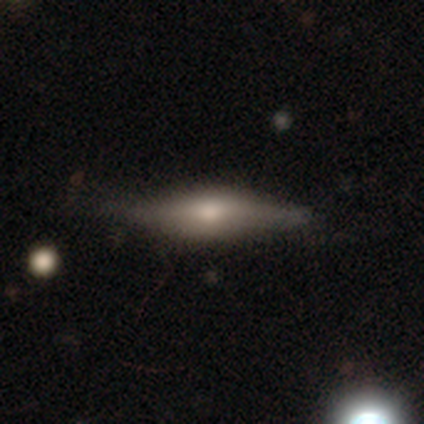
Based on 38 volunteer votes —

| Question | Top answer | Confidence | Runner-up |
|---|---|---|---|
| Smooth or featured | featured or disk | 58% | smooth (37%) |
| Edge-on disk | yes | 91% | no (9%) |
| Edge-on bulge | rounded | 85% | boxy (15%) |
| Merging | none | 72% | minor disturbance (28%) |